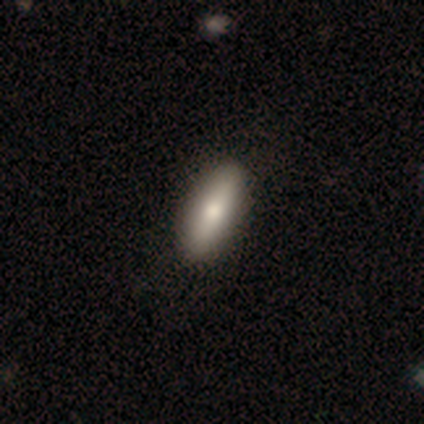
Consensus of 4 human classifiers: This is likely a smooth galaxy (75%). How rounded: clearly cigar-shaped (100%). Merging: clearly none (100%).